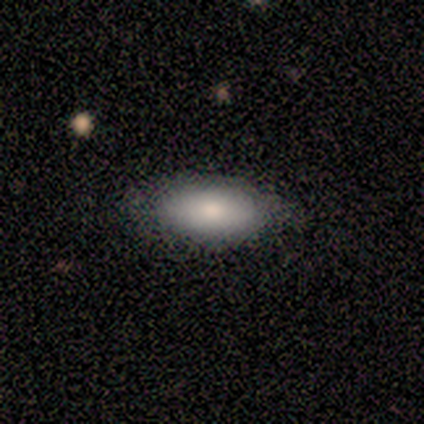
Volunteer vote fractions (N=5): smooth 80%, featured or disk 20%, star or artifact 0%. Down the decision tree: how rounded — in between (100%); merging — none (80%).